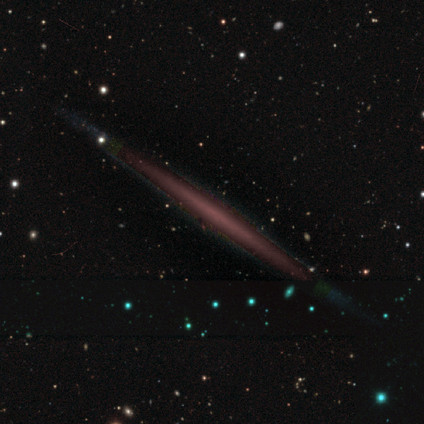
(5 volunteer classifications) Smooth or featured?
  - featured or disk: 60% *
  - smooth: 20%
  - star or artifact: 20%
Edge-on disk?
  - yes: 100% *
  - no: 0%
Edge-on bulge?
  - none: 100% *
  - boxy: 0%
  - rounded: 0%
Merging?
  - none: 75% *
  - minor disturbance: 25%
  - major disturbance: 0%
  - merger: 0%